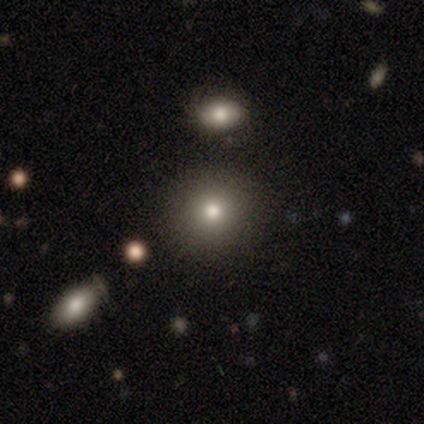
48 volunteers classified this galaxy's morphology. Smooth or featured?
  - smooth: 77% *
  - star or artifact: 21%
  - featured or disk: 2%
How rounded?
  - round: 89% *
  - in between: 8%
  - cigar-shaped: 3%
Merging?
  - none: 87% *
  - minor disturbance: 11%
  - merger: 3%
  - major disturbance: 0%